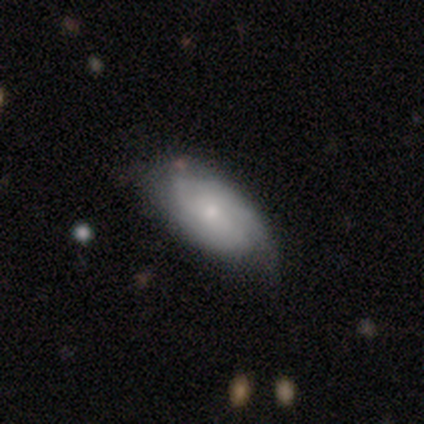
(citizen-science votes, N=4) A featured or disk galaxy (75%) with a strong bar (33%, tied with weak and no), 2 (33%, tied with 3 and can't tell) tight (33%, tied with medium and loose) spiral arms (100%) and a moderate central bulge (100%). Merging: none (50%, tied with minor disturbance).